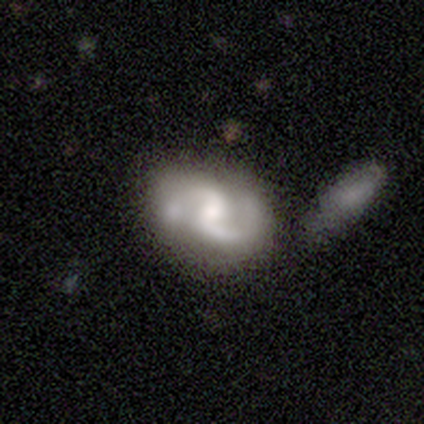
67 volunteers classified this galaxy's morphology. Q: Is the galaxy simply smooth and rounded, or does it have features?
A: featured or disk — 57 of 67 (85%).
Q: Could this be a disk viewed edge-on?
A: no — 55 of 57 (96%).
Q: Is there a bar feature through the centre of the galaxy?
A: weak — 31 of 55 (56%).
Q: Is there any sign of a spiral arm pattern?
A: yes — 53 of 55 (96%).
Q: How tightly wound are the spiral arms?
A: medium — 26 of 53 (49%).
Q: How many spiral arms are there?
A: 2 — 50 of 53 (94%).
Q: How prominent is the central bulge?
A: moderate — 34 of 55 (62%).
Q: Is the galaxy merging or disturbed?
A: none — 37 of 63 (59%).